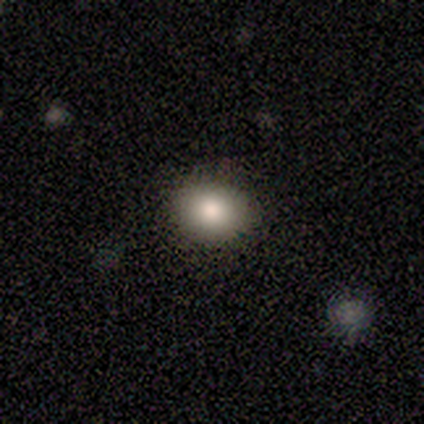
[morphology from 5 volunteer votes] Smooth or featured: smooth — 60% (featured or disk — 20%)
How rounded: round — 67% (in between — 33%)
Merging: none — 100%